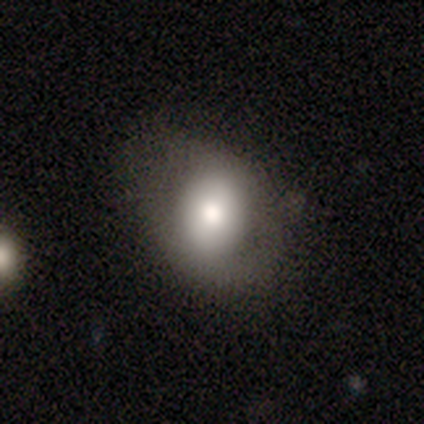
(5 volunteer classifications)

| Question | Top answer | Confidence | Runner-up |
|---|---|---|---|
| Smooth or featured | smooth | 60% | featured or disk (20%) |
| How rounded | in between | 100% | — |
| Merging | none | 50% | tied: major disturbance (50%) |